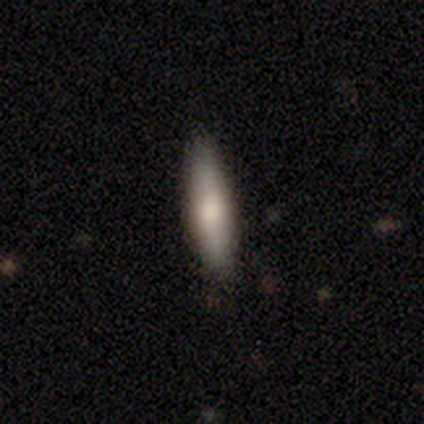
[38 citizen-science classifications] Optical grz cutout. It shows a smooth galaxy with no disk features (61%) that is cigar-shaped (74%). Merging: none (82%).